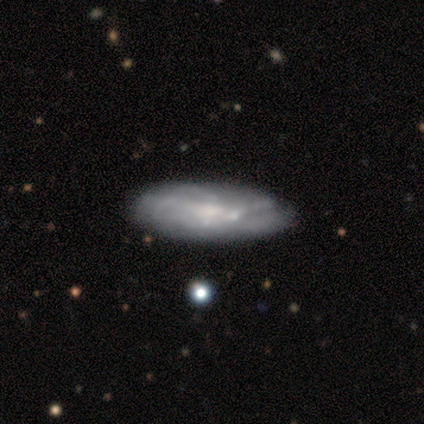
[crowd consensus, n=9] smooth_or_featured: smooth (p=0.67) [alt: featured or disk p=0.22]
how_rounded: in between (p=0.83) [alt: cigar-shaped p=0.17]
merging: none (p=0.88) [alt: major disturbance p=0.12]